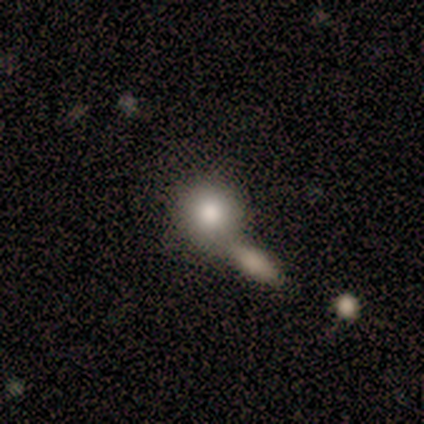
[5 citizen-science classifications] Smooth or featured: smooth — 80% (featured or disk — 20%)
How rounded: round — 50% (tied with in between — 50%)
Merging: merger — 60% (none — 20%)